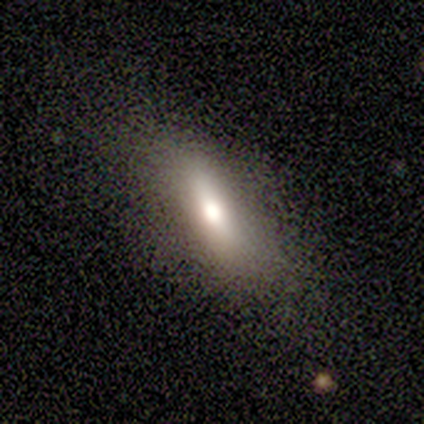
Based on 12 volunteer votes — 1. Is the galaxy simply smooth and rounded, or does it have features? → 83% smooth, 17% featured or disk, 0% star or artifact.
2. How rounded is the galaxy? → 60% in between, 40% cigar-shaped, 0% round.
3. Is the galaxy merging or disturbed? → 75% none, 8% minor disturbance, 8% major disturbance, 8% merger.